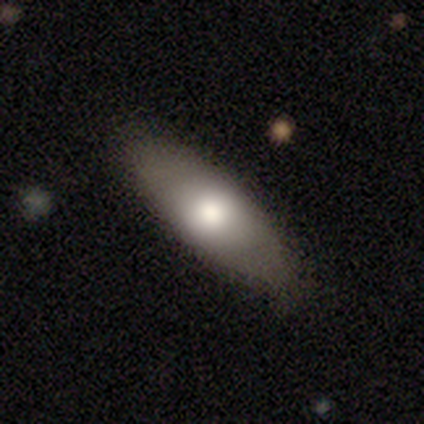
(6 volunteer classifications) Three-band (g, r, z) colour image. It shows a smooth galaxy with no disk features (100%) that is in between round and cigar-shaped (100%). Merging: none (83%).